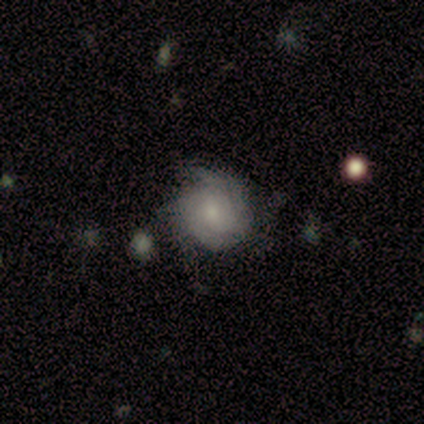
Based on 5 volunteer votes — smooth_or_featured: featured or disk (p=0.60) [alt: smooth p=0.20]
disk_edge_on: no (p=1.00)
bar: no (p=0.67) [alt: weak p=0.33]
has_spiral_arms: yes (p=0.67) [alt: no p=0.33]
spiral_winding: tight (p=0.50) [tied with: medium p=0.50]
spiral_arm_count: 4 (p=0.50) [tied with: can't tell p=0.50]
bulge_size: moderate (p=0.67) [alt: none p=0.33]
merging: none (p=0.50) [alt: minor disturbance p=0.25]